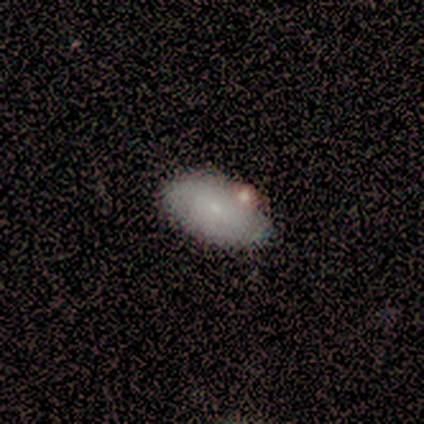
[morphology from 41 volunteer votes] Smooth or featured: smooth — 71% (featured or disk — 24%)
How rounded: in between — 100%
Merging: none — 67% (minor disturbance — 8%)